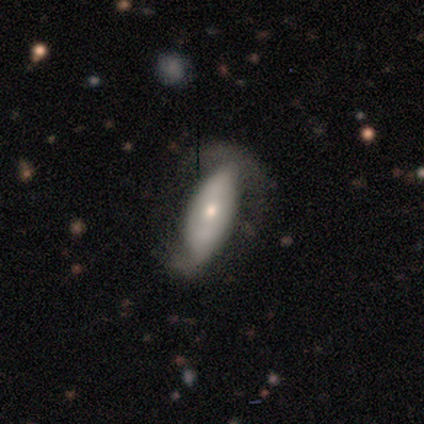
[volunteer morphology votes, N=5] Smooth or featured? 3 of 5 (60%) said smooth. How rounded? 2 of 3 (67%) said in between. Merging? 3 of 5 (60%) said none.